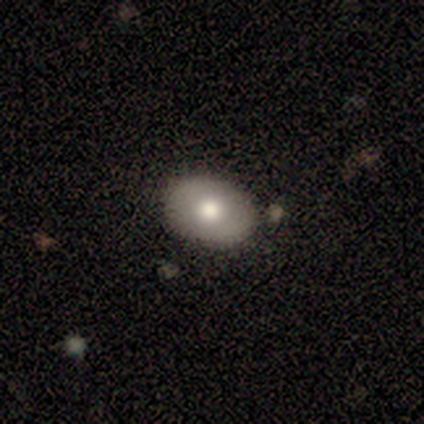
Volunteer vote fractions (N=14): Smooth or featured: smooth — 79% (featured or disk — 21%)
How rounded: in between — 100%
Merging: none — 93% (minor disturbance — 7%)